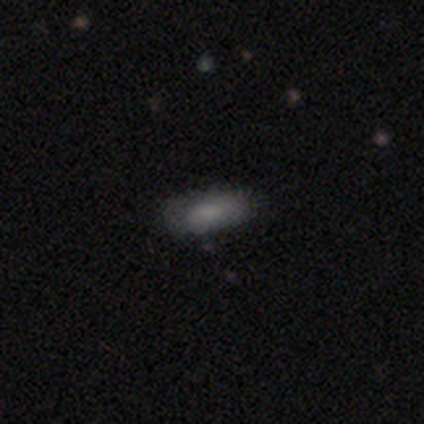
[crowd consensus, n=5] featured or disk 60%, smooth 40%, star or artifact 0%. Down the decision tree: edge-on disk — no (100%); bar — no (100%); spiral arms — no (100%); bulge size — moderate (33%, tied with small and none); merging — none (60%).